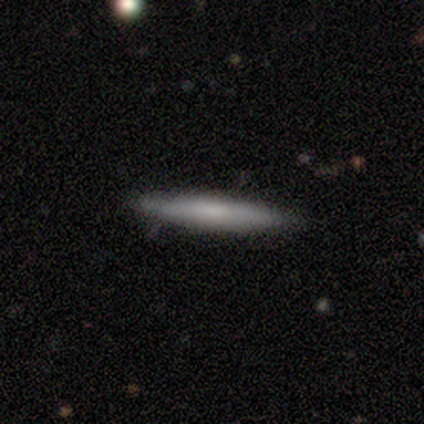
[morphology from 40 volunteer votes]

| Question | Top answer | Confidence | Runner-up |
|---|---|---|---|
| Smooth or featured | smooth | 68% | featured or disk (22%) |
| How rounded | cigar-shaped | 96% | in between (4%) |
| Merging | none | 89% | merger (6%) |